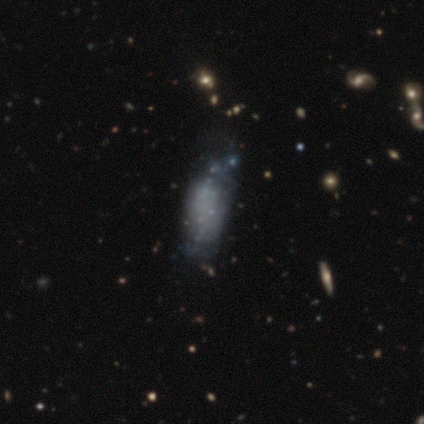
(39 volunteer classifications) A smooth galaxy with no disk features (49%) that is in between round and cigar-shaped (68%). Merging: minor disturbance (27%).